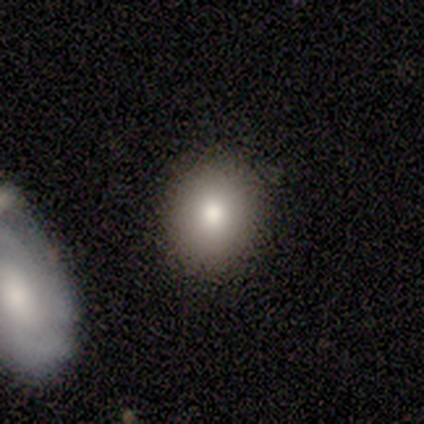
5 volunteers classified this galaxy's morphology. smooth 60%, featured or disk 20%, star or artifact 20%. Down the decision tree: how rounded — round (67%); merging — none (75%).